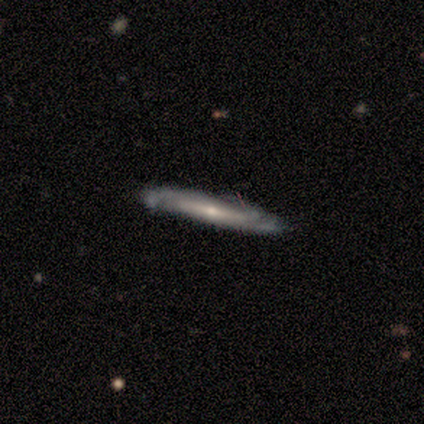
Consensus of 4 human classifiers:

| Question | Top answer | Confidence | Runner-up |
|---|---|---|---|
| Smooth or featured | featured or disk | 75% | smooth (25%) |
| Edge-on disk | yes | 100% | — |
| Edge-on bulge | rounded | 100% | — |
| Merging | none | 75% | minor disturbance (25%) |